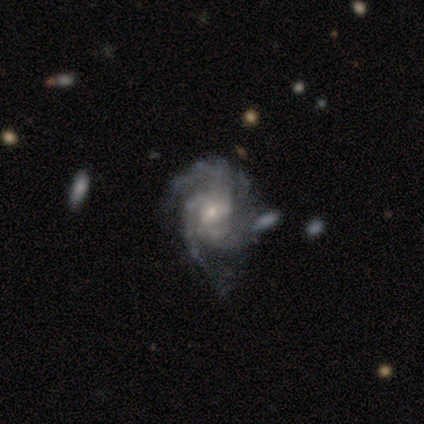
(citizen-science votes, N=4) Smooth or featured?
  - featured or disk: 50% *
  - smooth: 25%
  - star or artifact: 25%
Edge-on disk?
  - no: 100% *
  - yes: 0%
Bar?
  - no: 100% *
  - strong: 0%
  - weak: 0%
Spiral arms?
  - yes: 100% *
  - no: 0%
Spiral winding?
  - tight: 50% * (tied)
  - loose: 50% * (tied)
  - medium: 0%
Spiral arm count?
  - can't tell: 100% *
  - 1: 0%
  - 2: 0%
  - 3: 0%
  - 4: 0%
  - more than 4: 0%
Bulge size?
  - moderate: 50% * (tied)
  - small: 50% * (tied)
  - dominant: 0%
  - large: 0%
  - none: 0%
Merging?
  - minor disturbance: 100% *
  - none: 0%
  - major disturbance: 0%
  - merger: 0%